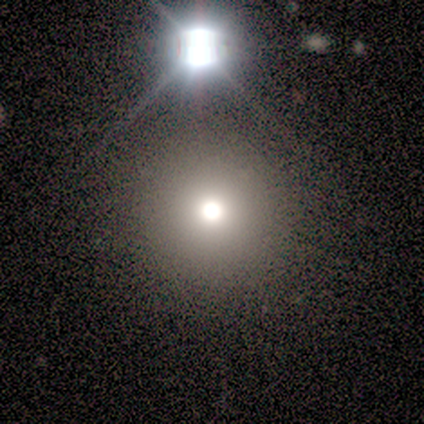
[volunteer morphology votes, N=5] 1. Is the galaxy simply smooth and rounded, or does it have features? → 80% smooth, 20% star or artifact, 0% featured or disk.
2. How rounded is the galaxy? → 100% round, 0% in between, 0% cigar-shaped.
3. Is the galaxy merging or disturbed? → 75% none, 25% merger, 0% minor disturbance, 0% major disturbance.